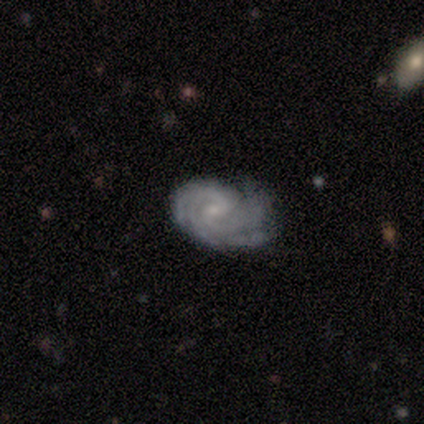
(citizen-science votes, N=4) Volunteers were most divided on "bulge size" (2-way tie): moderate: 50%, small: 50%, dominant: 0%, large: 0%, none: 0%. More confident: smooth or featured — featured or disk (100%); edge-on disk — no (100%); spiral arms — yes (100%); spiral winding — tight (75%); spiral arm count — 4 (75%); merging — none (75%); bar — no (50%).